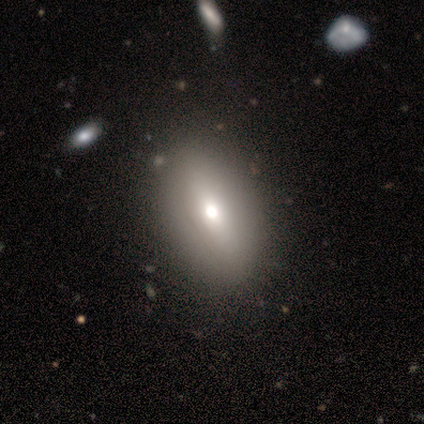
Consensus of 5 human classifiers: Overall: smooth (40%, tied with featured or disk). How rounded: in between (100%). Merging: none (75%).